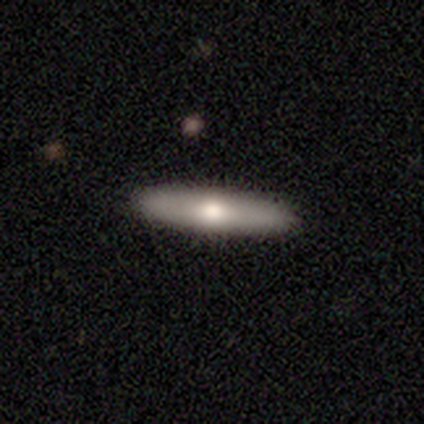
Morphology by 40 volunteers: Smooth or featured?
  - smooth: 68% *
  - featured or disk: 28%
  - star or artifact: 5%
How rounded?
  - cigar-shaped: 74% *
  - in between: 26%
  - round: 0%
Merging?
  - none: 63% *
  - minor disturbance: 3%
  - major disturbance: 0%
  - merger: 0%